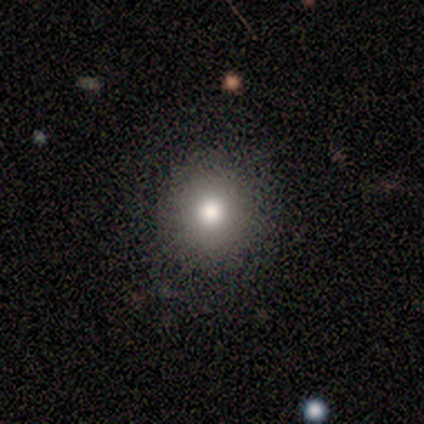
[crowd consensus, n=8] Morphology: type=smooth (75%); roundness=round (100%); merging=none (86%).